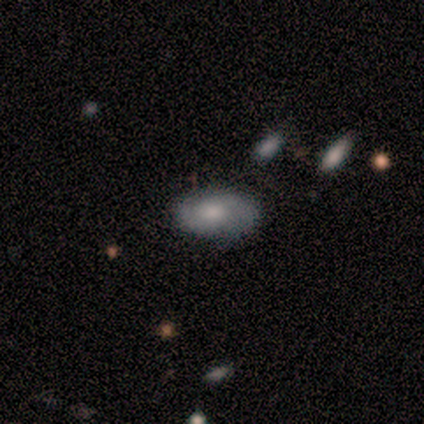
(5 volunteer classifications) Q: Smooth or featured?
A: smooth (80%); runner-up: featured or disk (20%)
Q: How rounded?
A: in between (100%)
Q: Merging?
A: none (60%); runner-up: minor disturbance (40%)